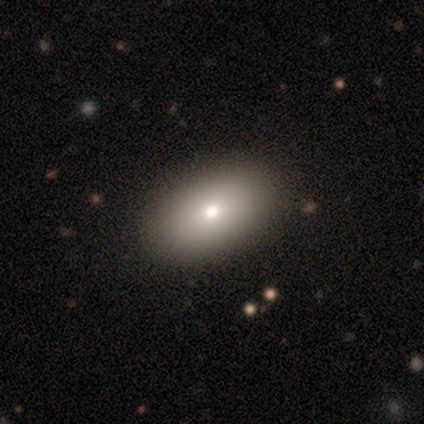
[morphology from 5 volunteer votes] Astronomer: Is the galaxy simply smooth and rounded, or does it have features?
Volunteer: featured or disk — 40%, tied with star or artifact at 40%.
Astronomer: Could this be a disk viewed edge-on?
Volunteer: yes — 50%, tied with no at 50%.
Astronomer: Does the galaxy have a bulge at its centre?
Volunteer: rounded — 100%.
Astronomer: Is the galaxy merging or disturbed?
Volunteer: none — 100%.